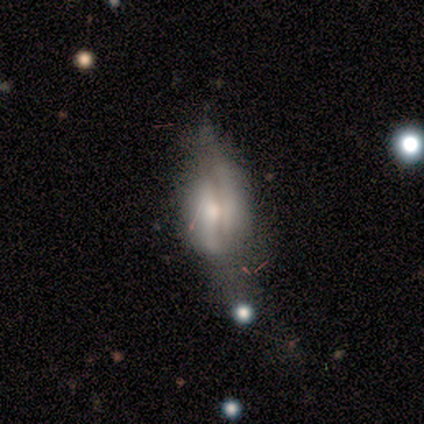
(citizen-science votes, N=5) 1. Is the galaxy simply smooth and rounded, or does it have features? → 80% smooth, 20% featured or disk, 0% star or artifact.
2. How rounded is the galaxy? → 75% in between, 25% cigar-shaped, 0% round.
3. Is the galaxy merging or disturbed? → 80% none, 20% major disturbance, 0% minor disturbance, 0% merger.